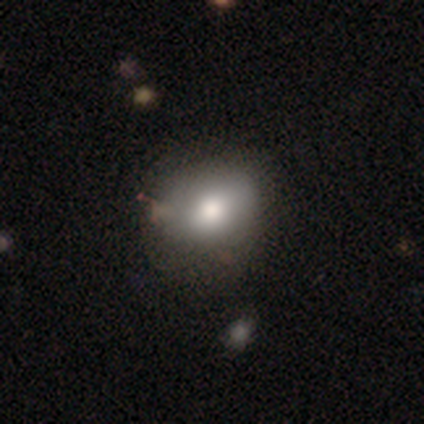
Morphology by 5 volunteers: smooth-or-featured: smooth: 60% | featured or disk: 40% | star or artifact: 0%
  how-rounded: in between: 67% | round: 33% | cigar-shaped: 0%
  merging: none: 60% | minor disturbance: 20% | merger: 20% | major disturbance: 0%